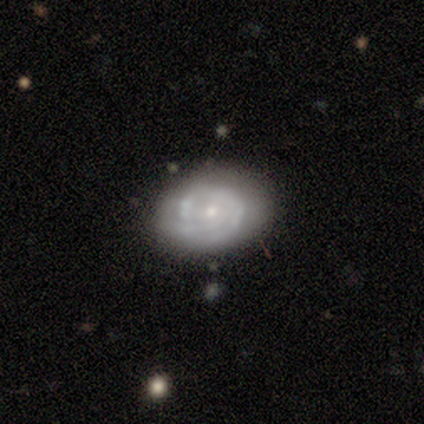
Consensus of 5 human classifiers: A featured or disk galaxy (100%) with no bar (100%), 3 (50%, tied with can't tell) tight (50%) spiral arms (80%) and a small central bulge (80%). Merging: none (80%).